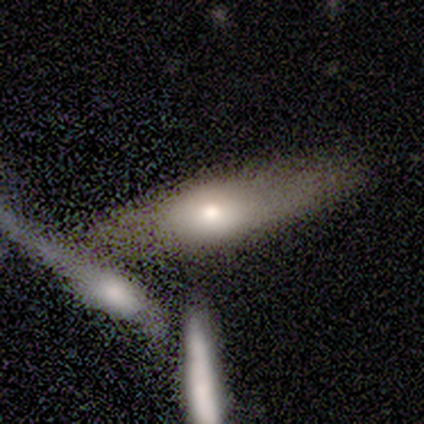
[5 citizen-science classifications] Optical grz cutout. It shows a smooth galaxy with no disk features (60%) that is in between round and cigar-shaped (67%). Merging: none (100%).